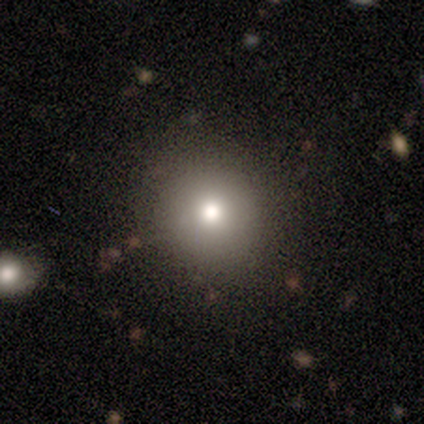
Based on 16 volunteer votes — smooth 81%, star or artifact 19%, featured or disk 0%. Down the decision tree: how rounded — round (77%); merging — none (100%).